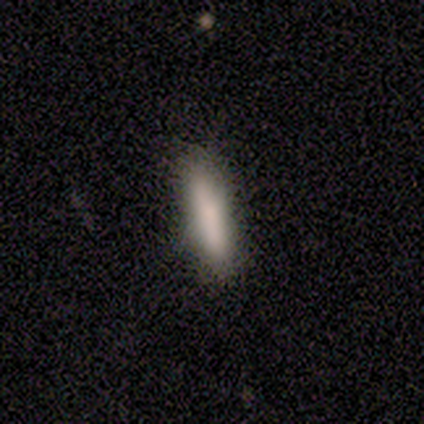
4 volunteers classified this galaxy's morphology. This appears to be a smooth galaxy with no disk features (100%) that is cigar-shaped (100%). Merging: none (100%).